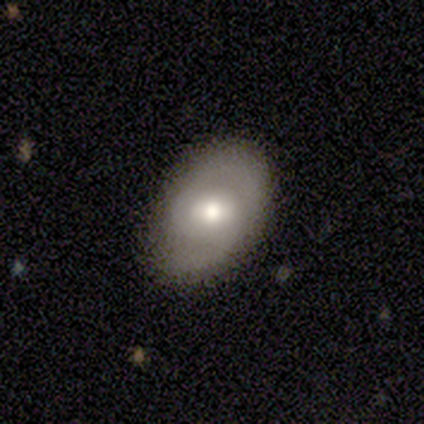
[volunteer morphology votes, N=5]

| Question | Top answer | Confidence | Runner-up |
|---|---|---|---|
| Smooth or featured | featured or disk | 60% | smooth (40%) |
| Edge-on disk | no | 100% | — |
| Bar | weak | 67% | no (33%) |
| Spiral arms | yes | 67% | no (33%) |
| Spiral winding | tight | 50% | tied: medium (50%) |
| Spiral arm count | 2 | 50% | tied: can't tell (50%) |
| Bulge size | moderate | 100% | — |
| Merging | none | 60% | minor disturbance (40%) |